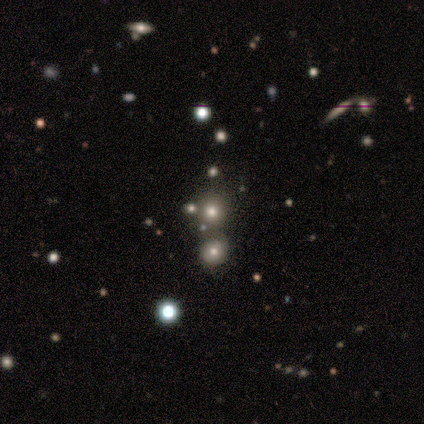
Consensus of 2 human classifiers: Q: Smooth or featured?
A: smooth (50%); tied with: star or artifact (50%)
Q: How rounded?
A: round (100%)
Q: Merging?
A: none (100%)